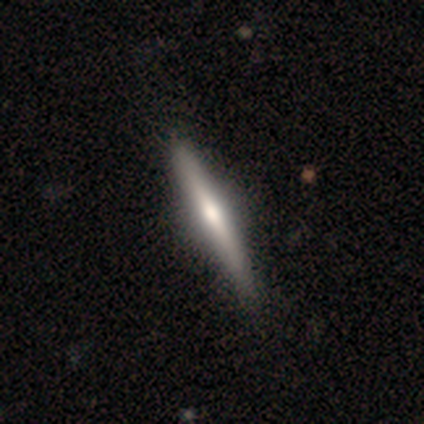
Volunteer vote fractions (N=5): smooth 60%, featured or disk 40%, star or artifact 0%. Down the decision tree: how rounded — cigar-shaped (100%); merging — none (100%).